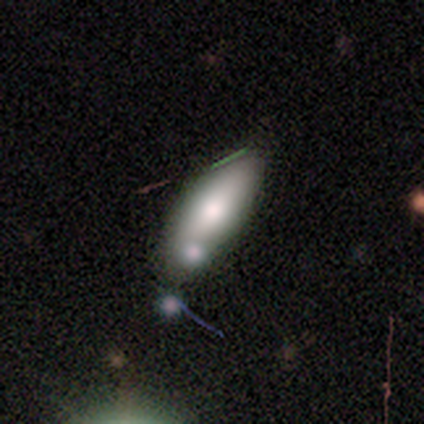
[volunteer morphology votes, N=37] Smooth or featured? 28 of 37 (76%) said smooth. How rounded? 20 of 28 (71%) said in between. Merging? 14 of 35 (40%) said none.